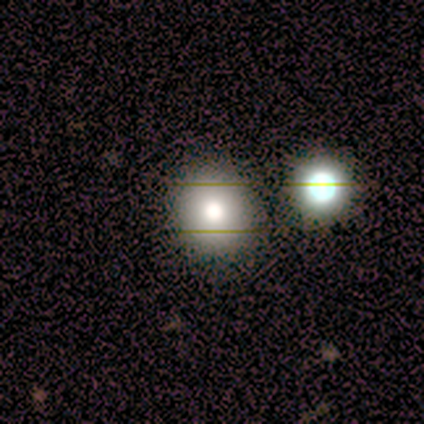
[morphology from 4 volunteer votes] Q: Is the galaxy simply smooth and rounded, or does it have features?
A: star or artifact — 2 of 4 (50%).